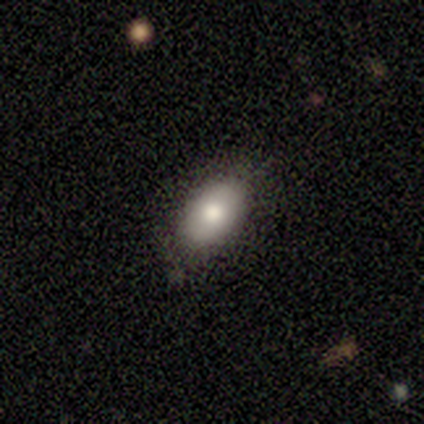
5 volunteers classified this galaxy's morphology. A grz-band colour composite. It shows a smooth galaxy with no disk features (80%) that is in between round and cigar-shaped (100%). Merging: none (100%).